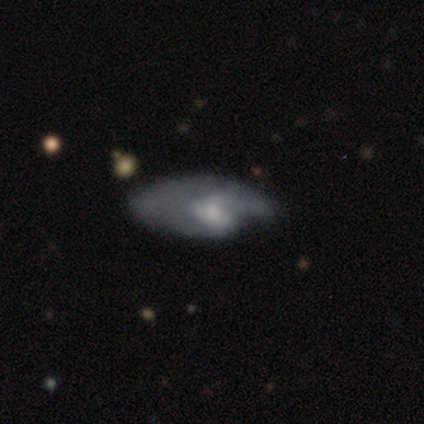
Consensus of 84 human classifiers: Smooth or featured: featured or disk — 63% (smooth — 31%)
Edge-on disk: no — 96% (yes — 4%)
Bar: no — 51% (weak — 41%)
Spiral arms: yes — 67% (no — 33%)
Spiral winding: loose — 44% (medium — 32%)
Spiral arm count: 2 — 44% (1 — 38%)
Bulge size: small — 51% (moderate — 41%)
Merging: major disturbance — 49% (none — 30%)